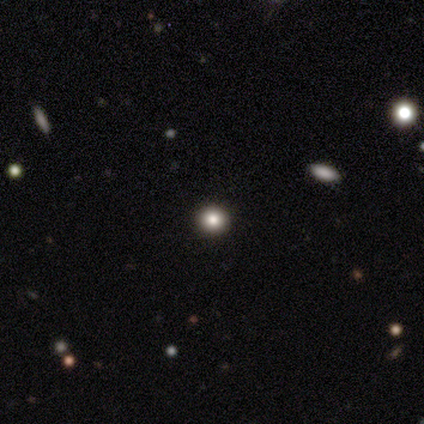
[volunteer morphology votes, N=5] Smooth or featured: smooth — 80% (star or artifact — 20%)
How rounded: round — 75% (in between — 25%)
Merging: none — 100%